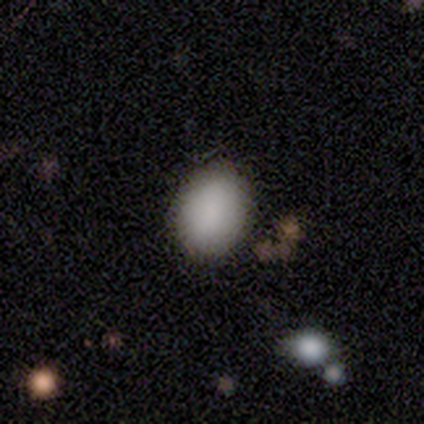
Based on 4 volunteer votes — Q: Smooth or featured?
A: smooth (50%); tied with: star or artifact (50%)
Q: How rounded?
A: round (50%); tied with: in between (50%)
Q: Merging?
A: none (100%)